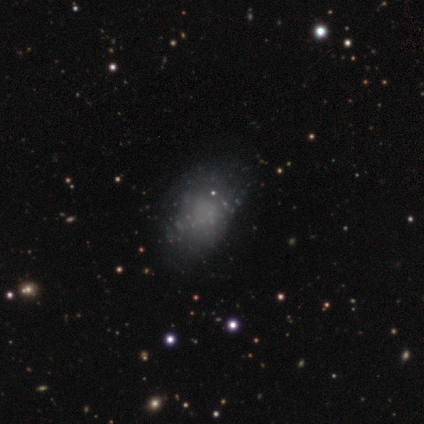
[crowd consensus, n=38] Q: Smooth or featured?
A: smooth (47%); runner-up: featured or disk (39%)
Q: How rounded?
A: in between (72%); runner-up: round (28%)
Q: Merging?
A: none (52%); runner-up: minor disturbance (36%)